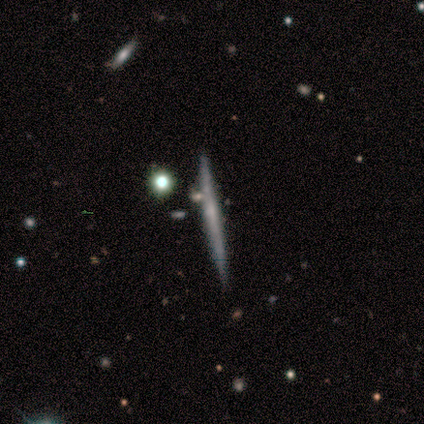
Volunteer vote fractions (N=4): Smooth or featured?
  - smooth: 50% * (tied)
  - featured or disk: 50% * (tied)
  - star or artifact: 0%
How rounded?
  - cigar-shaped: 100% *
  - round: 0%
  - in between: 0%
Merging?
  - none: 100% *
  - minor disturbance: 0%
  - major disturbance: 0%
  - merger: 0%